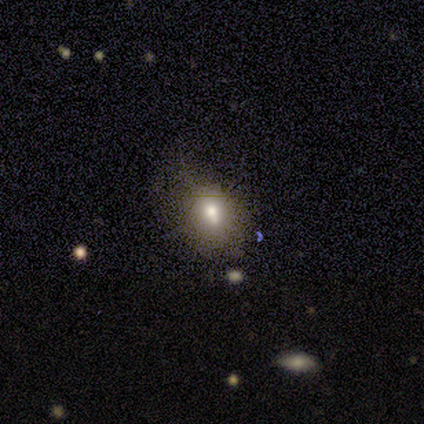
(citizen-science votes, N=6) smooth 67%, featured or disk 17%, star or artifact 17%. Down the decision tree: how rounded — in between (75%); merging — minor disturbance (40%).